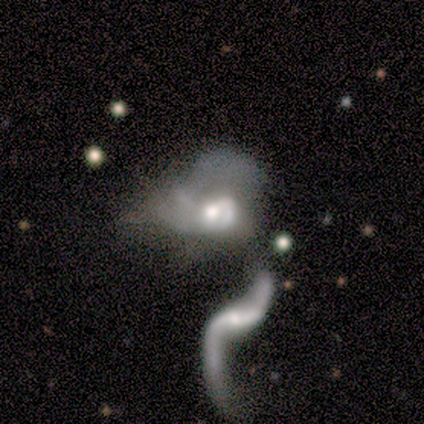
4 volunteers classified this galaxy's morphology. This is possibly a smooth galaxy (50%, tied with featured or disk). How rounded: clearly in between (100%). Merging: possibly merger (50%).